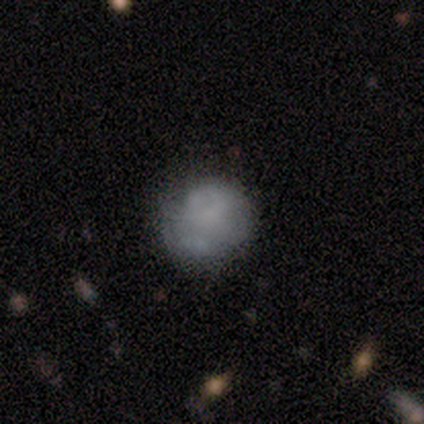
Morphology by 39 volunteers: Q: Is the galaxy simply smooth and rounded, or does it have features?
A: smooth — 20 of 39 (51%).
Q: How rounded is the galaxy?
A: round — 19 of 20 (95%).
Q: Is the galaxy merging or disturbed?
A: none — 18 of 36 (50%).